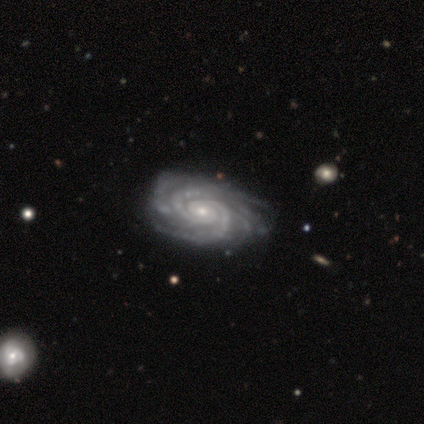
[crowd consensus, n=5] featured or disk 80%, star or artifact 20%, smooth 0%. Down the decision tree: edge-on disk — no (100%); bar — no (75%); spiral arms — yes (100%); spiral arm count — 2 (75%); spiral winding — tight (75%); bulge size — small (100%); merging — none (100%).